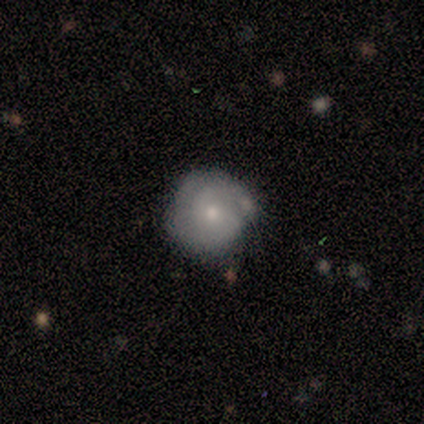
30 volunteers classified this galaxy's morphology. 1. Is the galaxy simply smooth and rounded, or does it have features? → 50% featured or disk, 43% smooth, 7% star or artifact.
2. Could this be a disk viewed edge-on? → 100% no, 0% yes.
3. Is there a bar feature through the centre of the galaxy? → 93% no, 7% weak, 0% strong.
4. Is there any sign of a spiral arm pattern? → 67% yes, 33% no.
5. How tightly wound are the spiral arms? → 90% tight, 10% medium, 0% loose.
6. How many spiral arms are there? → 60% 2, 30% can't tell, 10% 1, 0% 3, 0% 4, 0% more than 4.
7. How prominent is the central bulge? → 60% moderate, 40% small, 0% dominant, 0% large, 0% none.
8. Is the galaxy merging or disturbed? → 79% none, 21% minor disturbance, 0% major disturbance, 0% merger.